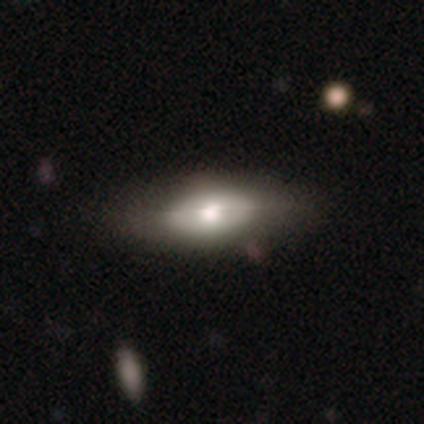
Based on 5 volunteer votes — smooth_or_featured: featured or disk (p=0.60) [alt: smooth p=0.40]
disk_edge_on: yes (p=0.67) [alt: no p=0.33]
edge_on_bulge: rounded (p=1.00)
merging: none (p=0.80) [alt: minor disturbance p=0.20]